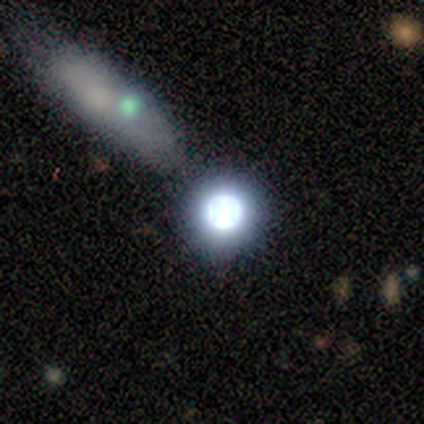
Volunteers were most divided on "smooth or featured": star or artifact: 75%, smooth: 12%, featured or disk: 12%.